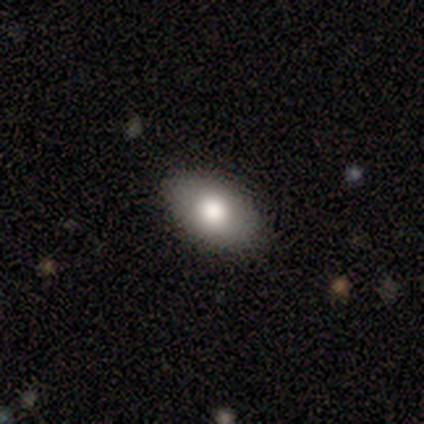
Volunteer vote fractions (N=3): A smooth galaxy with no disk features (100%) that is in between round and cigar-shaped (67%).

Vote fractions:
- Smooth or featured? smooth: 100% / featured or disk: 0% / star or artifact: 0%
- How rounded? in between: 67% / round: 33% / cigar-shaped: 0%
- Merging? none: 100% / minor disturbance: 0% / major disturbance: 0% / merger: 0%